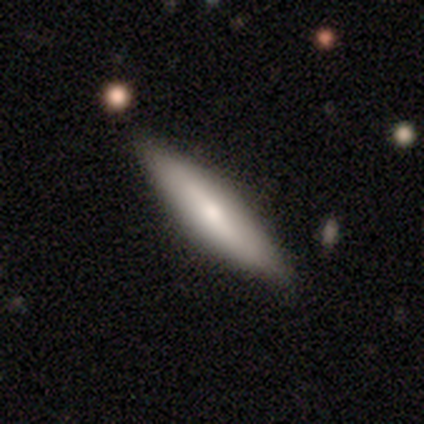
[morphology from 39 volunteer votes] This appears to be a smooth galaxy with no disk features (62%) that is cigar-shaped (88%). Merging: none (77%).